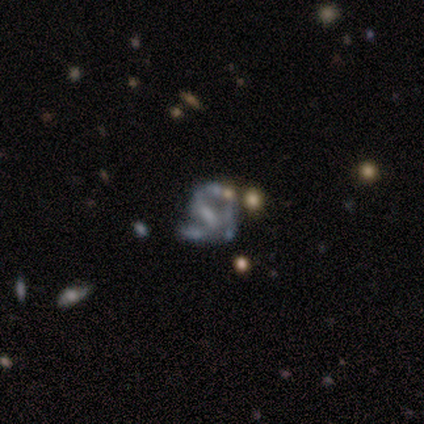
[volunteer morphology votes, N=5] Smooth or featured? featured or disk (100%)
Edge-on disk? no (100%)
Bar? strong (100%)
Spiral arms? yes (80%)
Spiral winding? medium (50%)
Spiral arm count? 2 (75%)
Bulge size? moderate (40%, tied with none)
Merging? none (60%)